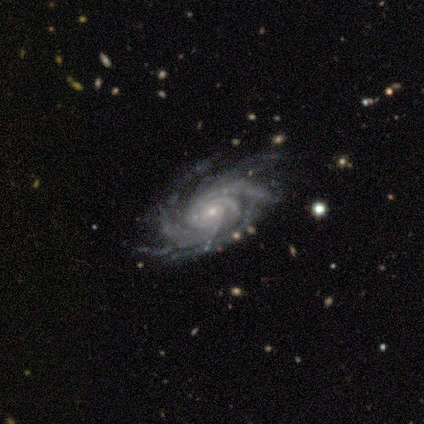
Morphology: type=featured or disk (95%); edge-on=no (98%); bar=no (75%); spiral arms=yes (100%); winding=tight (78%); arm count=more than 4 (48%); bulge=small (85%); merging=none (83%).